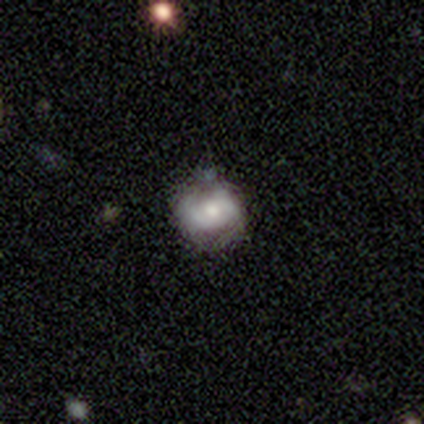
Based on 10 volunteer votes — Smooth or featured? 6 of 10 (60%) said featured or disk. Edge-on disk? 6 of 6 (100%) said no. Bar? 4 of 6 (67%) said no. Spiral arms? 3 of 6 (50%, tied with no) said yes. Spiral winding? 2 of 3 (67%) said tight. Spiral arm count? 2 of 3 (67%) said 4. Bulge size? 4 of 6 (67%) said moderate. Merging? 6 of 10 (60%) said none.